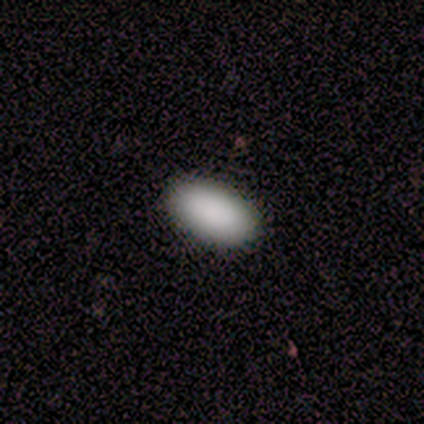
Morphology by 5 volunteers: This appears to be a smooth galaxy with no disk features (80%) that is in between round and cigar-shaped (100%). Merging: none (80%).